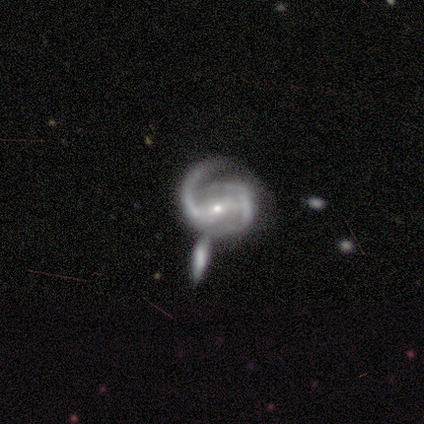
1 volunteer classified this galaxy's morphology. Overall: featured or disk (100%). Edge-on disk: no (100%). Bar: strong (100%). Spiral arms: yes (100%). Spiral arm count: 2 (100%). Spiral winding: medium (100%). Bulge size: moderate (100%). Merging: merger (100%).